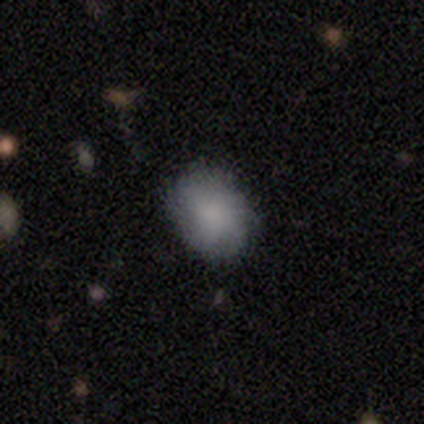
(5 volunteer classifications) smooth 100%, featured or disk 0%, star or artifact 0%. Down the decision tree: how rounded — in between (80%); merging — none (100%).